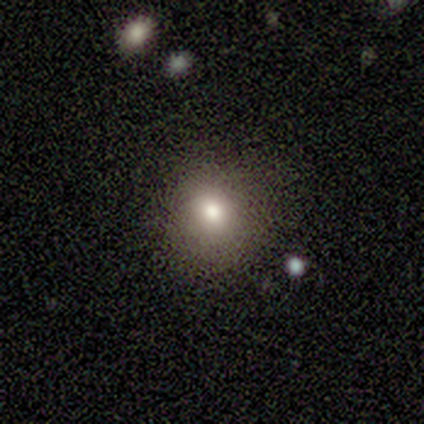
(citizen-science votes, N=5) Overall: smooth (80%). How rounded: round (75%). Merging: none (100%).